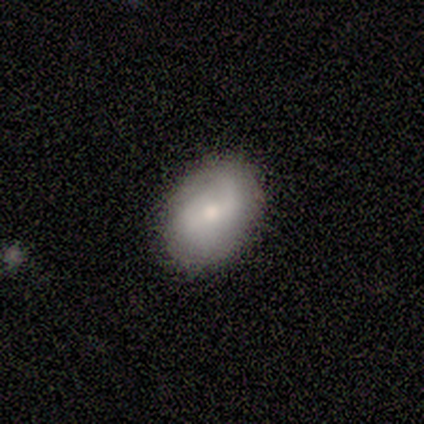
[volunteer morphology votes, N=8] This is likely a smooth galaxy (75%). How rounded: clearly in between (83%). Merging: likely none (75%).